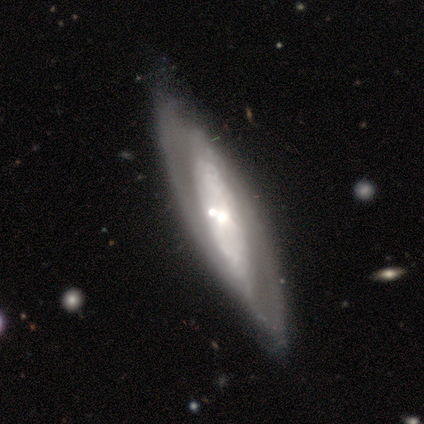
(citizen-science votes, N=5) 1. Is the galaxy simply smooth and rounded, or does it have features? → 80% featured or disk, 20% smooth, 0% star or artifact.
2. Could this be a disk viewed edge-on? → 50% yes (tied), 50% no (tied).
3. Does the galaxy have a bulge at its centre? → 50% none (tied), 50% rounded (tied), 0% boxy.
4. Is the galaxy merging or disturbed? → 80% none, 20% merger, 0% minor disturbance, 0% major disturbance.